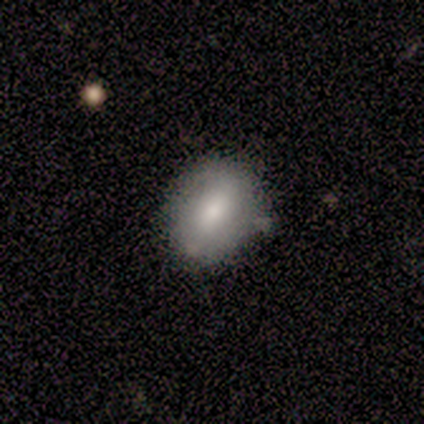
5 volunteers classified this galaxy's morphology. smooth-or-featured: smooth: 60% | featured or disk: 20% | star or artifact: 20%
  how-rounded: in between: 100% | round: 0% | cigar-shaped: 0%
  merging: none: 50% (tied) | merger: 50% (tied) | minor disturbance: 0% | major disturbance: 0%